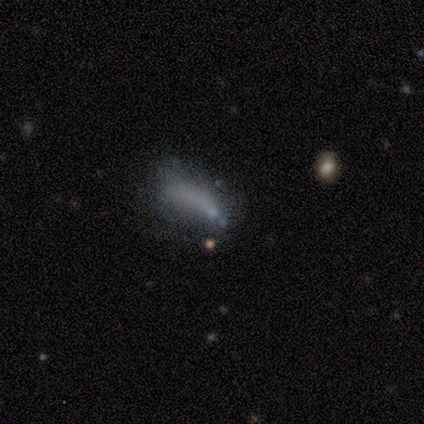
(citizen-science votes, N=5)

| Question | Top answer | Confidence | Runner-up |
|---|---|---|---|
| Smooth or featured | smooth | 80% | featured or disk (20%) |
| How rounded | in between | 50% | tied: cigar-shaped (50%) |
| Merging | major disturbance | 60% | none (20%) |